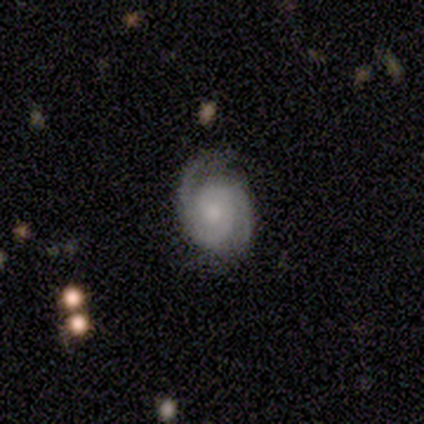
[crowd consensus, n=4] Smooth or featured? featured or disk (100%)
Edge-on disk? no (100%)
Bar? no (75%)
Spiral arms? yes (100%)
Spiral winding? tight (50%, tied with medium)
Spiral arm count? 2 (75%)
Bulge size? moderate (50%)
Merging? none (75%)